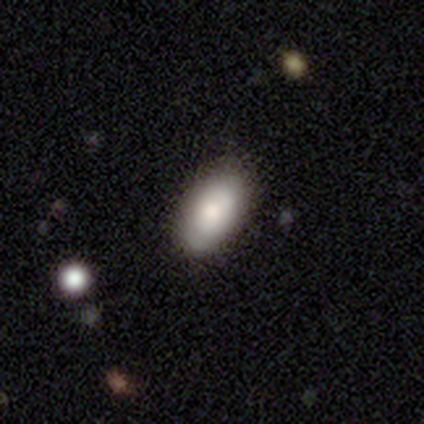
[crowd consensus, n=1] A smooth galaxy with no disk features (100%) that is in between round and cigar-shaped (100%).

Vote fractions:
- Smooth or featured? smooth: 100% / featured or disk: 0% / star or artifact: 0%
- How rounded? in between: 100% / round: 0% / cigar-shaped: 0%
- Merging? minor disturbance: 100% / none: 0% / major disturbance: 0% / merger: 0%